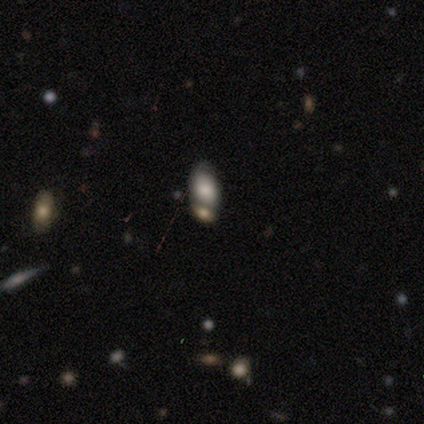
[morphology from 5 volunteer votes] This appears to be a smooth galaxy with no disk features (60%) that is in between round and cigar-shaped (67%). Merging: none (50%, tied with merger).